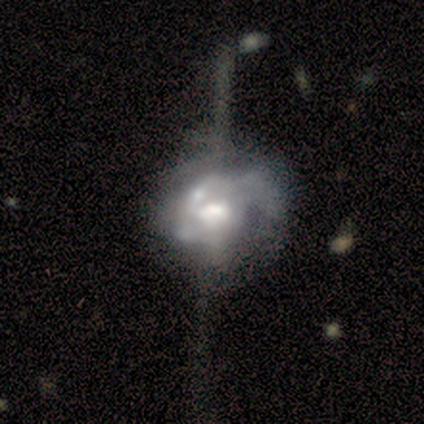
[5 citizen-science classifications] Q: Smooth or featured?
A: featured or disk (100%)
Q: Edge-on disk?
A: no (100%)
Q: Bar?
A: no (100%)
Q: Spiral arms?
A: yes (60%); runner-up: no (40%)
Q: Spiral winding?
A: medium (67%); runner-up: loose (33%)
Q: Spiral arm count?
A: can't tell (67%); runner-up: 2 (33%)
Q: Bulge size?
A: moderate (80%); runner-up: large (20%)
Q: Merging?
A: major disturbance (40%); tied with: merger (40%)